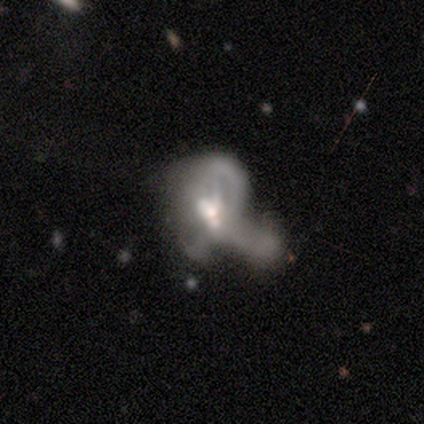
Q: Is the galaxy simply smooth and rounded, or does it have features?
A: featured or disk — 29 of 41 (71%).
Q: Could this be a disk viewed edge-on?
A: no — 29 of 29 (100%).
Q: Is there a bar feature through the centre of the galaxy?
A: no — 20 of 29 (69%).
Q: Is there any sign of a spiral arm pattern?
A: no — 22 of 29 (76%).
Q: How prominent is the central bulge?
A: moderate — 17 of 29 (59%).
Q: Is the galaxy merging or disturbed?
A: major disturbance — 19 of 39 (49%, tied with merger).